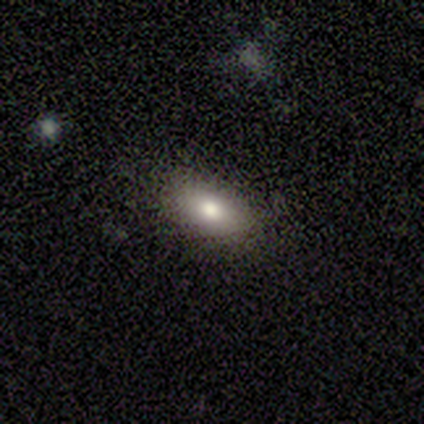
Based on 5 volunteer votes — Smooth or featured? 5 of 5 (100%) said smooth. How rounded? 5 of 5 (100%) said in between. Merging? 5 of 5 (100%) said none.